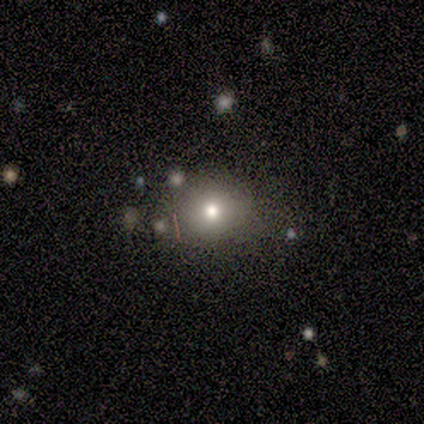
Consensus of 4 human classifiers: Smooth or featured: smooth — 100%
How rounded: round — 100%
Merging: none — 100%